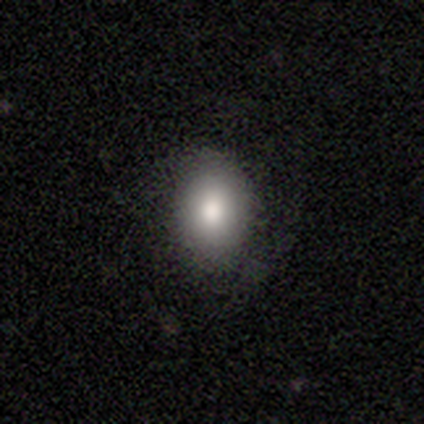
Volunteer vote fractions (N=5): Smooth or featured: smooth — 60% (star or artifact — 40%)
How rounded: in between — 100%
Merging: none — 100%